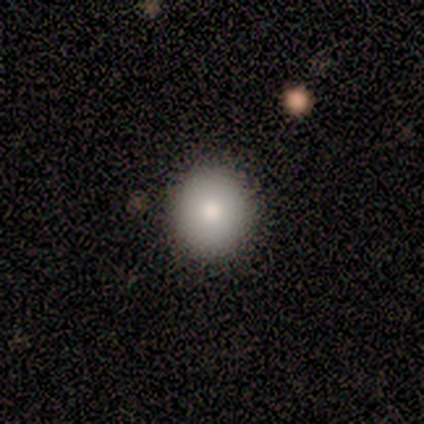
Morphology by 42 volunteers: Smooth or featured? 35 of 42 (83%) said smooth. How rounded? 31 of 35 (89%) said round. Merging? 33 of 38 (87%) said none.